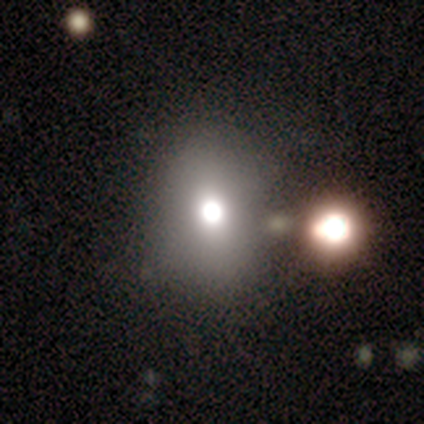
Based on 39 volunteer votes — Volunteers were most divided on "merging": none: 58%, minor disturbance: 19%, major disturbance: 13%, merger: 10%. More confident: how rounded — in between (69%); smooth or featured — smooth (67%).